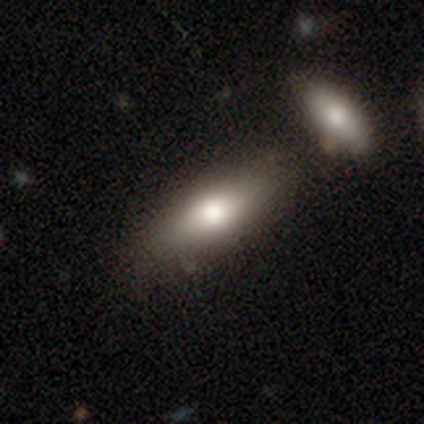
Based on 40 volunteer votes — Smooth or featured? 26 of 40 (65%) said smooth. How rounded? 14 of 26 (54%) said in between. Merging? 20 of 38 (53%) said none.